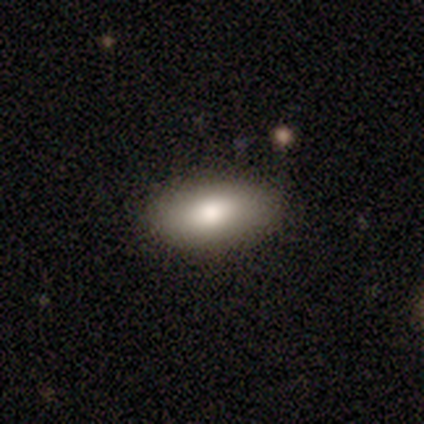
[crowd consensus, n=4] A smooth galaxy with no disk features (75%) that is in between round and cigar-shaped (100%).

Vote fractions:
- Smooth or featured? smooth: 75% / featured or disk: 25% / star or artifact: 0%
- How rounded? in between: 100% / round: 0% / cigar-shaped: 0%
- Merging? none: 100% / minor disturbance: 0% / major disturbance: 0% / merger: 0%